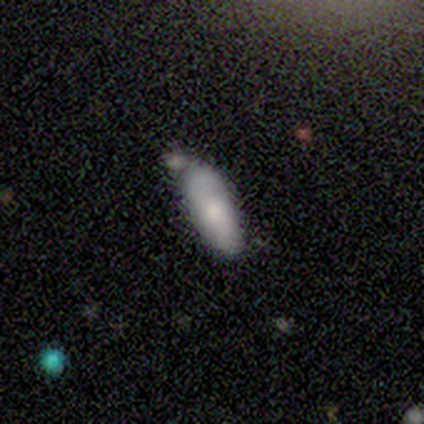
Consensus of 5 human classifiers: Smooth or featured?
  - smooth: 80% *
  - featured or disk: 20%
  - star or artifact: 0%
How rounded?
  - in between: 75% *
  - cigar-shaped: 25%
  - round: 0%
Merging?
  - none: 80% *
  - merger: 20%
  - minor disturbance: 0%
  - major disturbance: 0%